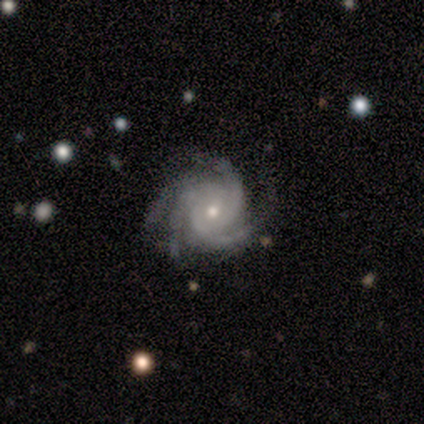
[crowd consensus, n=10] Smooth or featured: featured or disk — 100%
Edge-on disk: no — 100%
Bar: no — 100%
Spiral arms: yes — 100%
Spiral winding: tight — 70% (medium — 30%)
Spiral arm count: 4 — 70% (3 — 20%)
Bulge size: small — 60% (moderate — 40%)
Merging: none — 70% (minor disturbance — 20%)